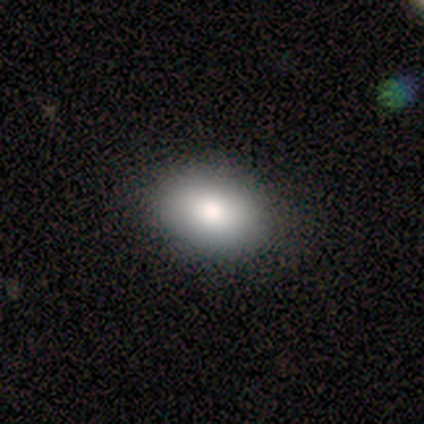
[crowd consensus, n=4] Q: Smooth or featured?
A: smooth (75%); runner-up: featured or disk (25%)
Q: How rounded?
A: in between (100%)
Q: Merging?
A: none (100%)